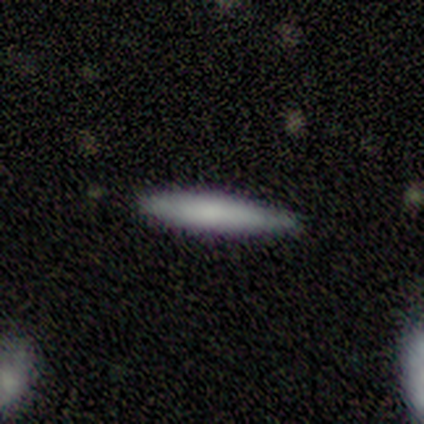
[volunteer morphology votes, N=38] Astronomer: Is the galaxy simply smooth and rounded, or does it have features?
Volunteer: smooth — 74%.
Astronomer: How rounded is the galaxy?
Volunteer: cigar-shaped — 100%.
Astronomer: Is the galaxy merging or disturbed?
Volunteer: none — 78%.